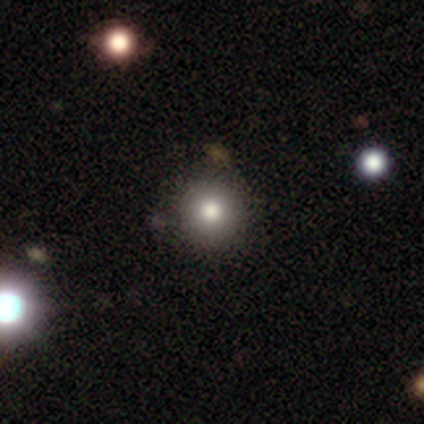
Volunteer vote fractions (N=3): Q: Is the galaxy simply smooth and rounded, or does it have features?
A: smooth — 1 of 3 (33%, tied with featured or disk and star or artifact).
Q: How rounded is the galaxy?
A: round — 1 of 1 (100%).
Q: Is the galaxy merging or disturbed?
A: minor disturbance — 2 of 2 (100%).